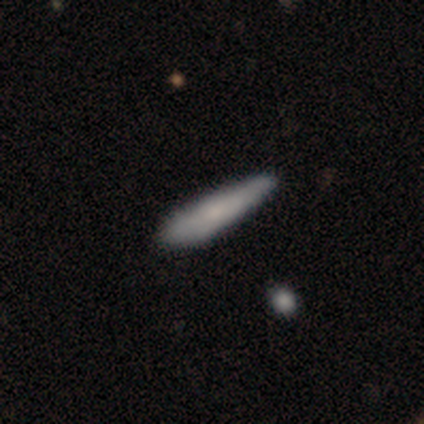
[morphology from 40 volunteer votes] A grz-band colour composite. It shows a smooth galaxy with no disk features (72%) that is cigar-shaped (76%). Merging: none (36%).